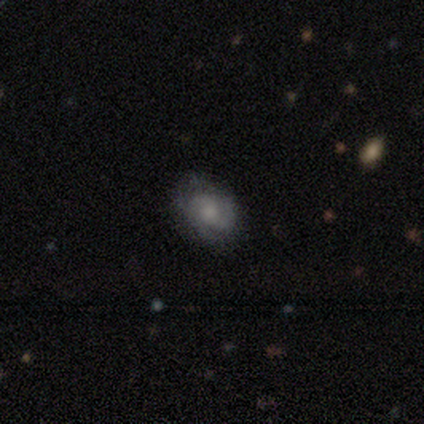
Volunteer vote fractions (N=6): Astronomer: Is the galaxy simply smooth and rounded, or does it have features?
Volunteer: smooth — 50%, tied with featured or disk at 50%.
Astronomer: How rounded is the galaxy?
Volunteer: in between — 100%.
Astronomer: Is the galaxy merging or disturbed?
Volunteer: none — 50%, tied with minor disturbance at 50%.